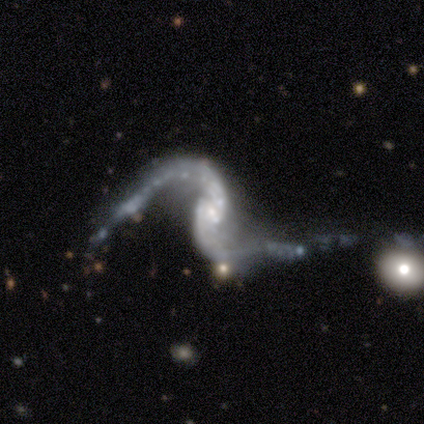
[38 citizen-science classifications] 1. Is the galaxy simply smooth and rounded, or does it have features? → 97% featured or disk, 3% star or artifact, 0% smooth.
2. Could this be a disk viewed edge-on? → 95% no, 5% yes.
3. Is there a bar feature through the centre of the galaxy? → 54% no, 31% weak, 14% strong.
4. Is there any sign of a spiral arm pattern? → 83% yes, 17% no.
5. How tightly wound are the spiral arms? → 86% loose, 10% medium, 3% tight.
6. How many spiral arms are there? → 97% 2, 3% 1, 0% 3, 0% 4, 0% more than 4, 0% can't tell.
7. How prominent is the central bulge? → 63% small, 23% none, 11% moderate, 3% dominant, 0% large.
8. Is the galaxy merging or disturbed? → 32% merger, 27% major disturbance, 22% none, 19% minor disturbance.